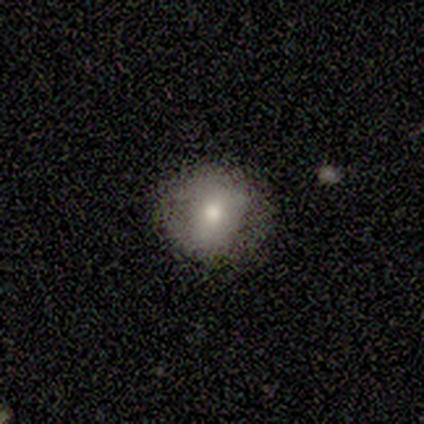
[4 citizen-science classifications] smooth_or_featured: smooth (p=1.00)
how_rounded: round (p=1.00)
merging: none (p=0.75) [alt: major disturbance p=0.25]